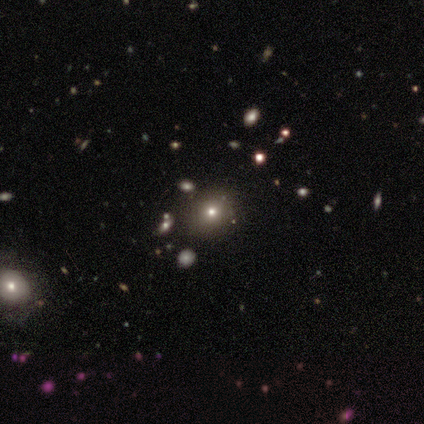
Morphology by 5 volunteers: Smooth or featured? 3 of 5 (60%) said smooth. How rounded? 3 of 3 (100%) said round. Merging? 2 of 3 (67%) said none.